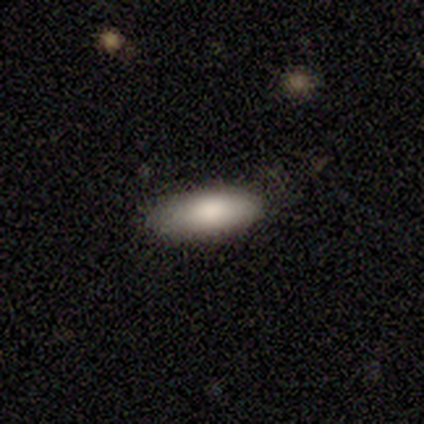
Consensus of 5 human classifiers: This is clearly a smooth galaxy (100%). How rounded: clearly in between (80%). Merging: clearly none (80%).